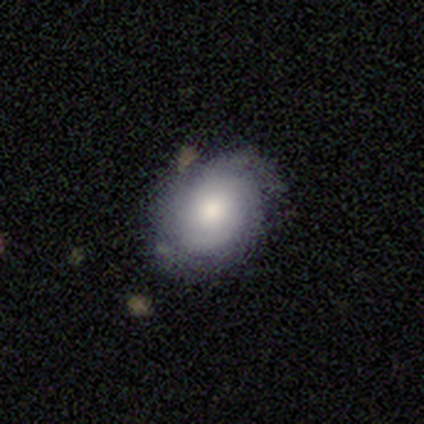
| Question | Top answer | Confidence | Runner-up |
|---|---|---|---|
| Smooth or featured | featured or disk | 75% | smooth (25%) |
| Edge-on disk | no | 67% | yes (33%) |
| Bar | no | 100% | — |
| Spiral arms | yes | 100% | — |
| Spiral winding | tight | 50% | tied: medium (50%) |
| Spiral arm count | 1 | 50% | tied: 2 (50%) |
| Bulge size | moderate | 100% | — |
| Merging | none | 100% | — |